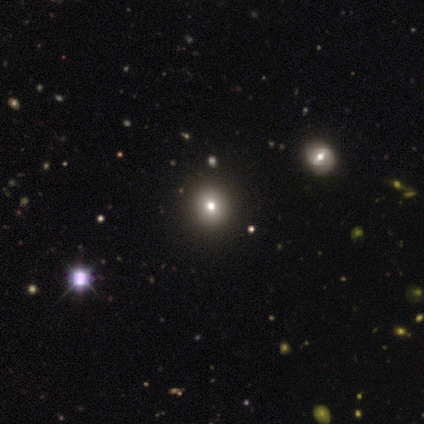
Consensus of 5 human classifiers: A star or artifact, not a galaxy (60%).